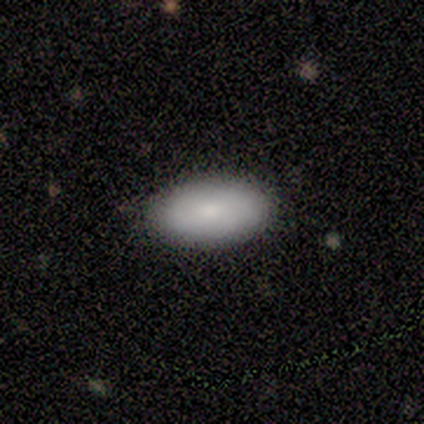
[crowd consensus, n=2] This is clearly a smooth galaxy (100%). How rounded: clearly in between (100%). Merging: possibly none (50%, tied with minor disturbance).